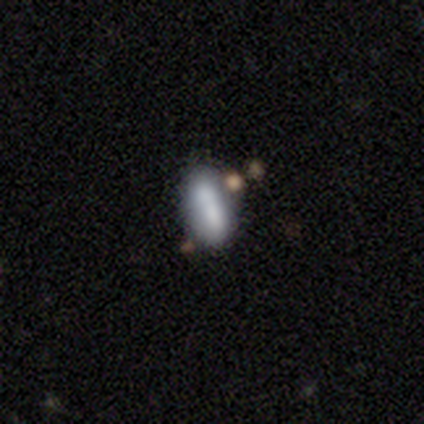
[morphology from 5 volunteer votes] smooth-or-featured: smooth: 100% | featured or disk: 0% | star or artifact: 0%
  how-rounded: in between: 100% | round: 0% | cigar-shaped: 0%
  merging: minor disturbance: 60% | merger: 40% | none: 0% | major disturbance: 0%